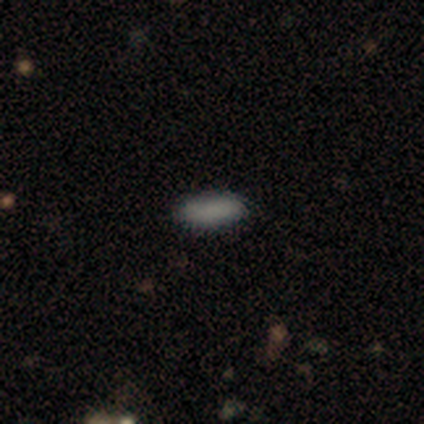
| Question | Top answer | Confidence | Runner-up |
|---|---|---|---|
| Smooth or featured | smooth | 100% | — |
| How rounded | cigar-shaped | 67% | in between (33%) |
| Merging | none | 83% | minor disturbance (17%) |